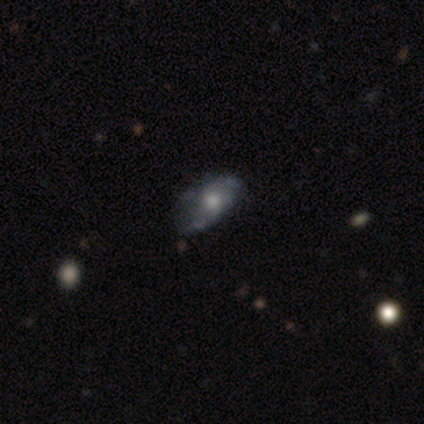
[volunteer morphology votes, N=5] Smooth or featured: smooth — 60% (featured or disk — 40%)
How rounded: in between — 100%
Merging: minor disturbance — 60% (none — 20%)